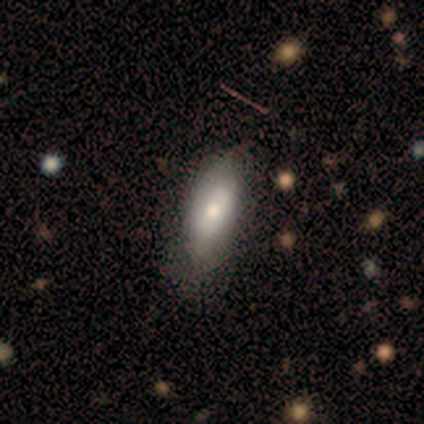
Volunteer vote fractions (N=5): Smooth or featured: smooth — 80% (featured or disk — 20%)
How rounded: in between — 75% (cigar-shaped — 25%)
Merging: minor disturbance — 60% (none — 20%)